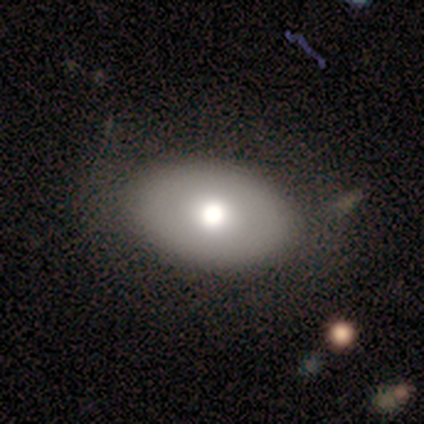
Volunteers were most divided on "bulge size" (2-way tie): large: 50%, moderate: 50%, dominant: 0%, small: 0%, none: 0%. More confident: edge-on disk — no (100%); bar — no (100%); spiral arms — no (100%); merging — none (100%); smooth or featured — featured or disk (50%).